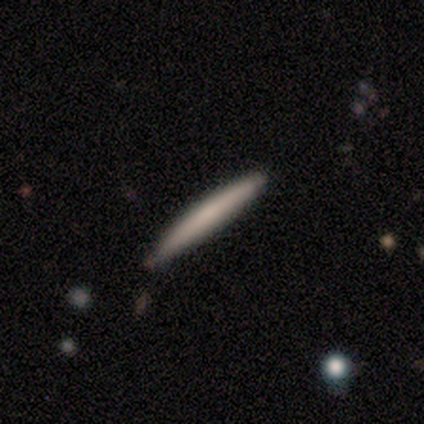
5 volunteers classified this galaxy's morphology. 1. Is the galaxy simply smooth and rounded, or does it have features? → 60% smooth, 40% featured or disk, 0% star or artifact.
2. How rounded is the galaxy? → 100% cigar-shaped, 0% round, 0% in between.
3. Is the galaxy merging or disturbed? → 100% none, 0% minor disturbance, 0% major disturbance, 0% merger.